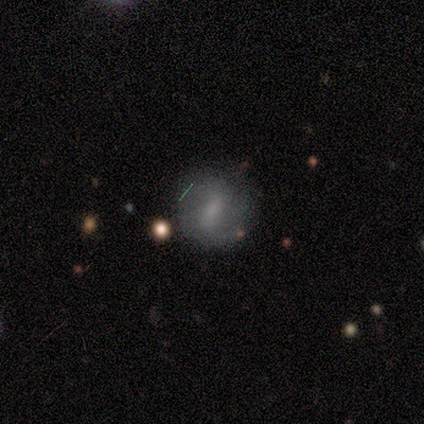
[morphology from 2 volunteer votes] A smooth galaxy with no disk features (50%, tied with featured or disk) that is round (100%). Merging: none (100%).